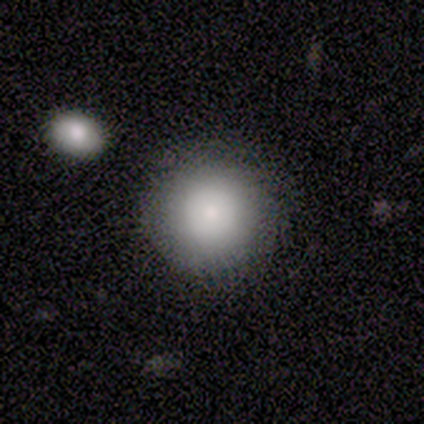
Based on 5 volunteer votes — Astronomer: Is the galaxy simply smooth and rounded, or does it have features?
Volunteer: smooth — 100%.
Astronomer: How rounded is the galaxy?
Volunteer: round — 100%.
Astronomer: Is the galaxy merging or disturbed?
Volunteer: none — 100%.